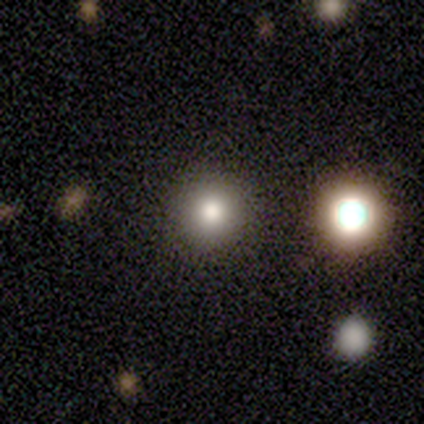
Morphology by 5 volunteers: Overall: smooth (60%; star or artifact 40%). How rounded: round (100%). Merging: none (100%).